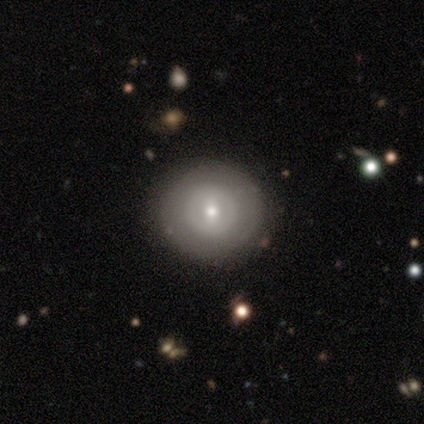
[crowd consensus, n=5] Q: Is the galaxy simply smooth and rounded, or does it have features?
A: featured or disk — 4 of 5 (80%).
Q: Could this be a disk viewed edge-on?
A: no — 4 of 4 (100%).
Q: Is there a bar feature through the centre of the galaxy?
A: weak — 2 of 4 (50%).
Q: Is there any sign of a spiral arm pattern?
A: no — 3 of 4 (75%).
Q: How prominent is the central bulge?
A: moderate — 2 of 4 (50%, tied with small).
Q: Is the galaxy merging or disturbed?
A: none — 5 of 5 (100%).